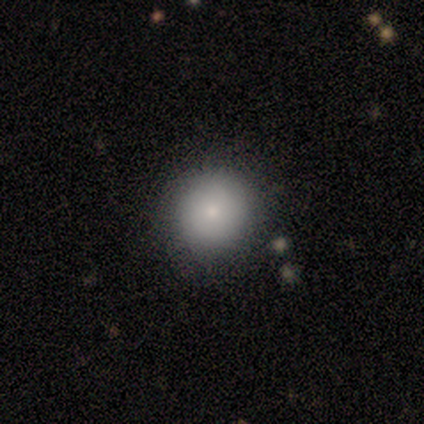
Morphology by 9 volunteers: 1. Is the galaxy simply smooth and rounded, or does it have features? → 89% smooth, 11% featured or disk, 0% star or artifact.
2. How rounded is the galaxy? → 100% round, 0% in between, 0% cigar-shaped.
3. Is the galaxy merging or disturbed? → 78% none, 11% minor disturbance, 11% merger, 0% major disturbance.